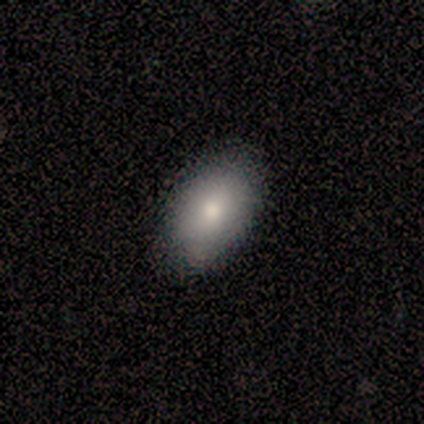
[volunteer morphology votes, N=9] This is clearly a smooth galaxy (89%). How rounded: likely in between (62%). Merging: clearly none (100%).